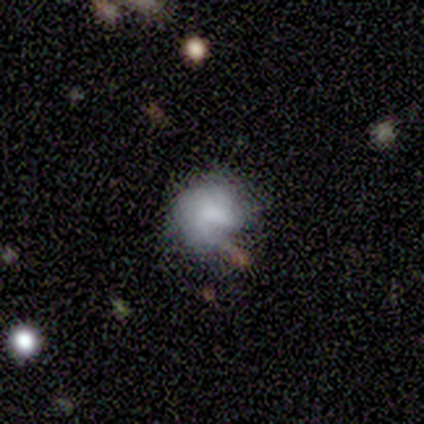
smooth-or-featured: smooth: 59% | featured or disk: 41% | star or artifact: 0%
  how-rounded: round: 60% | in between: 40% | cigar-shaped: 0%
  merging: minor disturbance: 41% | none: 29% | major disturbance: 18% | merger: 12%